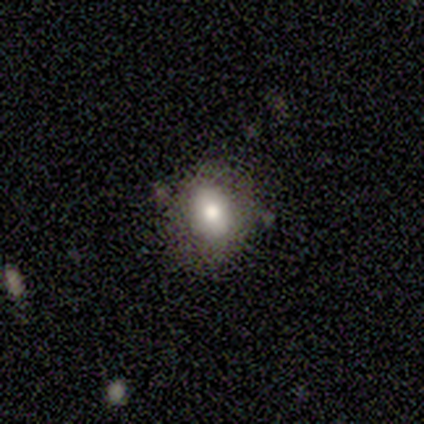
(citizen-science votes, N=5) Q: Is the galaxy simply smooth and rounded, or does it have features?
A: smooth — 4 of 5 (80%).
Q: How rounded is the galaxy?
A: round — 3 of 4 (75%).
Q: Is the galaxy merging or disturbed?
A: none — 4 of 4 (100%).